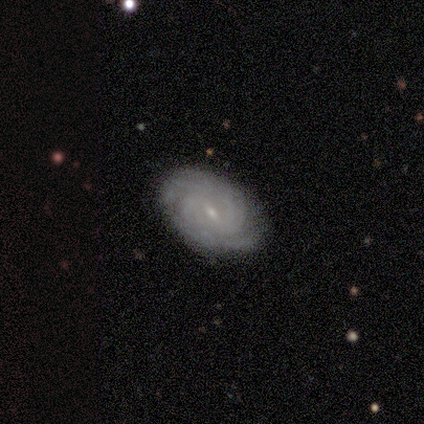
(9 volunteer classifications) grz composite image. It shows a featured or disk galaxy (89%) with a weak bar (75%), tight (75%) spiral arms (100%) and a small central bulge (100%). Merging: none (78%).